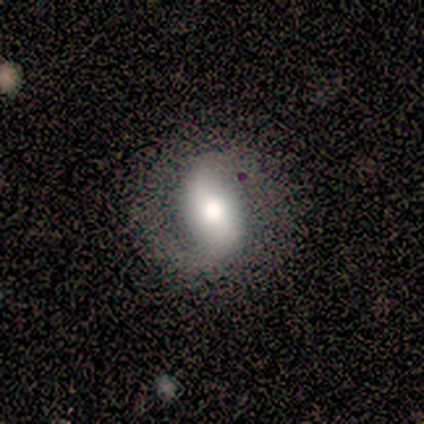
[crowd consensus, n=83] A featured or disk galaxy (70%) with a strong bar (44%), 2 (85%) medium (35%) spiral arms (81%) and a large central bulge (49%). Merging: none (68%).